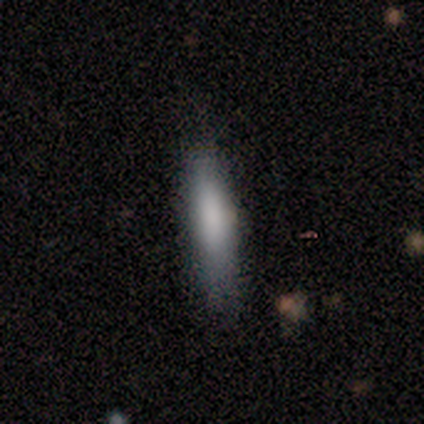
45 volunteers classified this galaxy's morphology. Smooth or featured? 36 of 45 (80%) said smooth. How rounded? 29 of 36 (81%) said cigar-shaped. Merging? 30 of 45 (67%) said none.